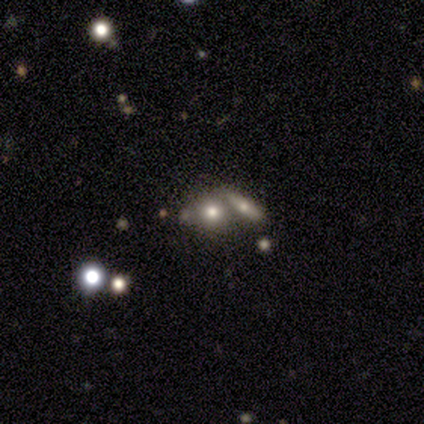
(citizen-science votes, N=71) Smooth or featured?
  - smooth: 65% *
  - featured or disk: 21%
  - star or artifact: 14%
How rounded?
  - round: 63% *
  - in between: 33%
  - cigar-shaped: 4%
Merging?
  - merger: 49% *
  - none: 36%
  - minor disturbance: 10%
  - major disturbance: 5%